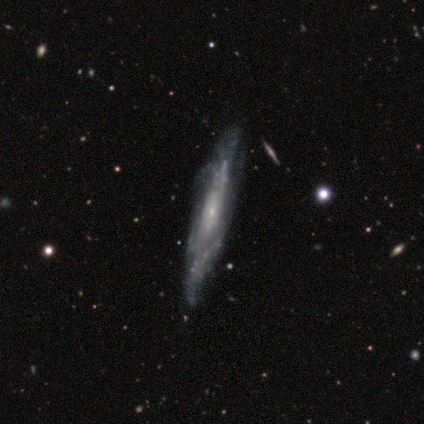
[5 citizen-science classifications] This is clearly a featured or disk galaxy (80%). It is likely not viewed edge-on (75%). Bar: clearly no (100%). Spiral arm pattern: likely yes (67%). Spiral arm count: possibly more than 4 (50%, tied with can't tell). Spiral winding: clearly tight (100%). Central bulge: clearly small (100%). Merging: likely minor disturbance (60%).